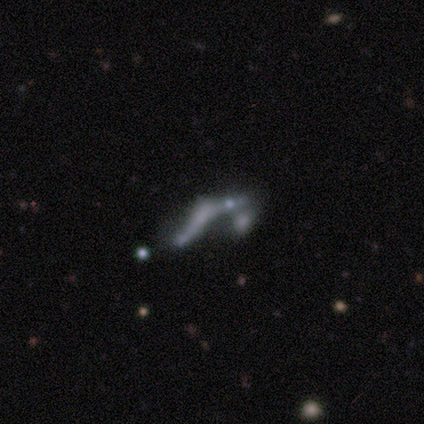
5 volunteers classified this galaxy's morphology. Volunteers were most divided on "merging" (2-way tie): major disturbance: 40%, merger: 40%, minor disturbance: 20%, none: 0%. More confident: how rounded — cigar-shaped (67%); smooth or featured — smooth (60%).